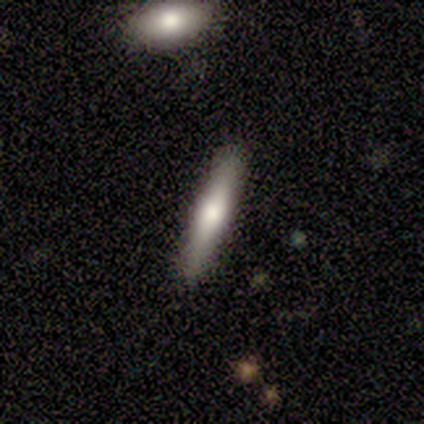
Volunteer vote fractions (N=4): smooth 75%, featured or disk 25%, star or artifact 0%. Down the decision tree: how rounded — cigar-shaped (100%); merging — none (75%).